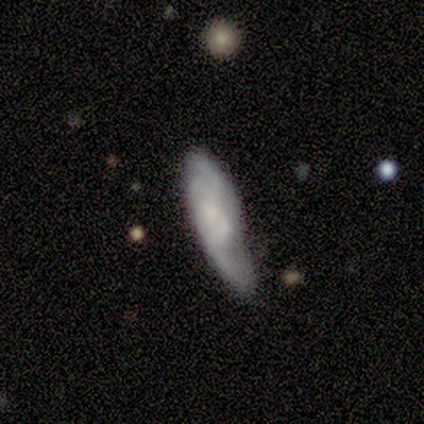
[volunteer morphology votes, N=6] Smooth or featured?
  - featured or disk: 67% *
  - smooth: 33%
  - star or artifact: 0%
Edge-on disk?
  - yes: 50% * (tied)
  - no: 50% * (tied)
Edge-on bulge?
  - rounded: 100% *
  - boxy: 0%
  - none: 0%
Merging?
  - minor disturbance: 50% *
  - none: 33%
  - major disturbance: 17%
  - merger: 0%